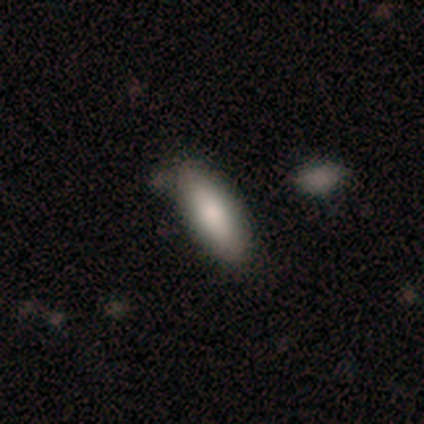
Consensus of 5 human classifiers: Smooth or featured: smooth — 80% (featured or disk — 20%)
How rounded: in between — 50% (tied with cigar-shaped — 50%)
Merging: none — 100%